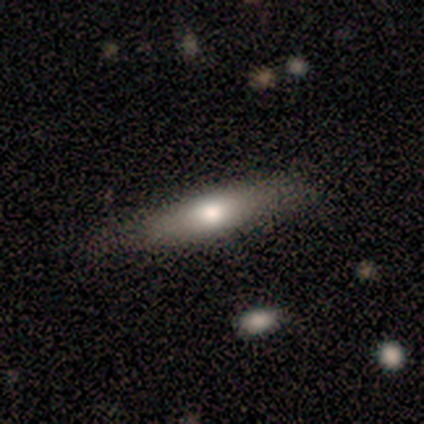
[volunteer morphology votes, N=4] smooth-or-featured: smooth: 75% | featured or disk: 25% | star or artifact: 0%
  how-rounded: cigar-shaped: 100% | round: 0% | in between: 0%
  merging: minor disturbance: 75% | none: 25% | major disturbance: 0% | merger: 0%